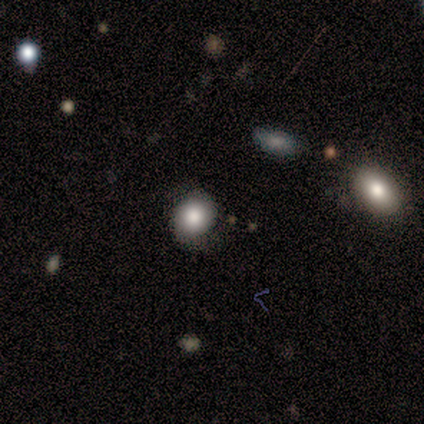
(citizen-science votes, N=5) Morphology: type=smooth (100%); roundness=round (60%); merging=none (80%).